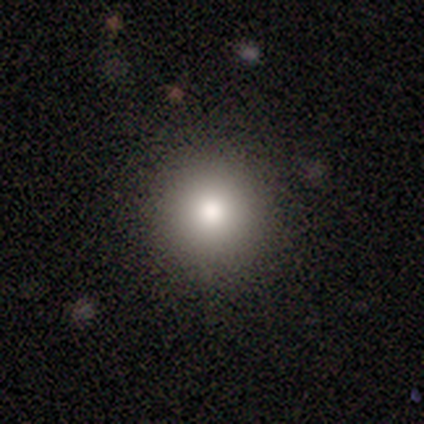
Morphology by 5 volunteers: This is clearly a smooth galaxy (80%). How rounded: clearly round (100%). Merging: clearly none (100%).